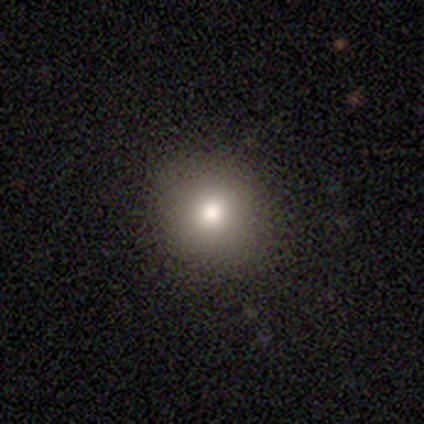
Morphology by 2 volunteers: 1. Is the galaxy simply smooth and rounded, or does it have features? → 50% smooth (tied), 50% star or artifact (tied), 0% featured or disk.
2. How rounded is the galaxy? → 100% round, 0% in between, 0% cigar-shaped.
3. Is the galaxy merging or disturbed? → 100% none, 0% minor disturbance, 0% major disturbance, 0% merger.